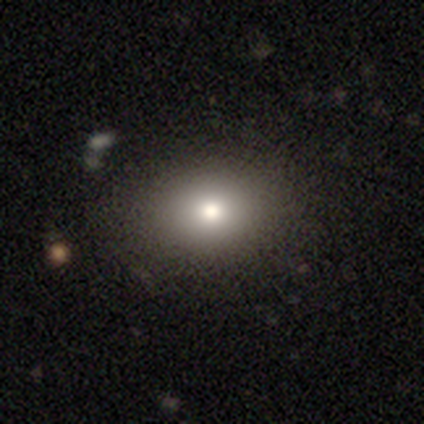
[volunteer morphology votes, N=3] A smooth galaxy with no disk features (67%) that is round (50%, tied with in between).

Vote fractions:
- Smooth or featured? smooth: 67% / featured or disk: 33% / star or artifact: 0%
- How rounded? round: 50% (tied) / in between: 50% (tied) / cigar-shaped: 0%
- Merging? none: 67% / minor disturbance: 33% / major disturbance: 0% / merger: 0%